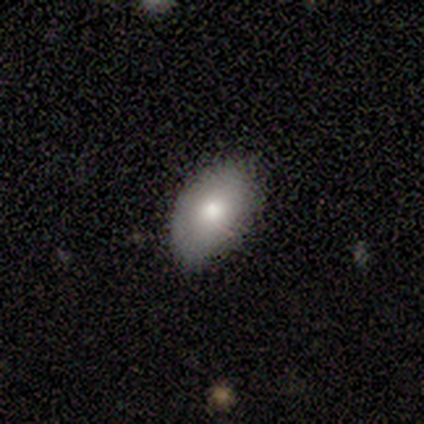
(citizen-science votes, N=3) Overall: smooth (100%). How rounded: in between (100%). Merging: none (100%).